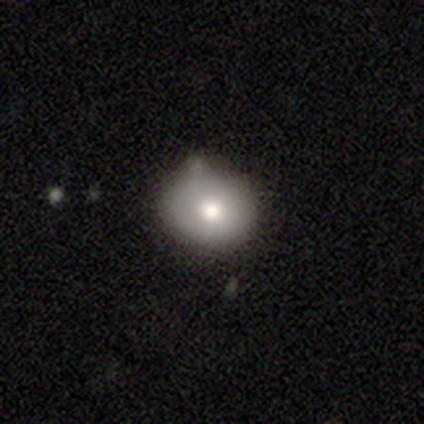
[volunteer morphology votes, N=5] A smooth galaxy with no disk features (60%) that is round (67%). Merging: none (75%).